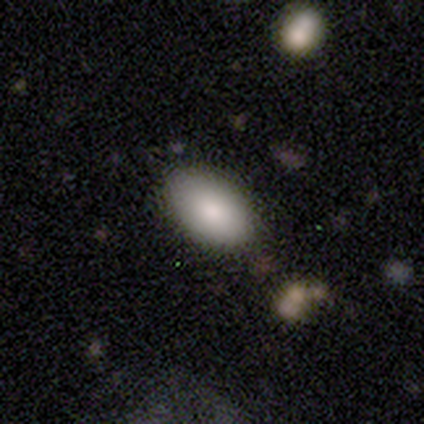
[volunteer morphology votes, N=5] Smooth or featured?
  - smooth: 40% * (tied)
  - star or artifact: 40% * (tied)
  - featured or disk: 20%
How rounded?
  - in between: 100% *
  - round: 0%
  - cigar-shaped: 0%
Merging?
  - none: 67% *
  - minor disturbance: 33%
  - major disturbance: 0%
  - merger: 0%